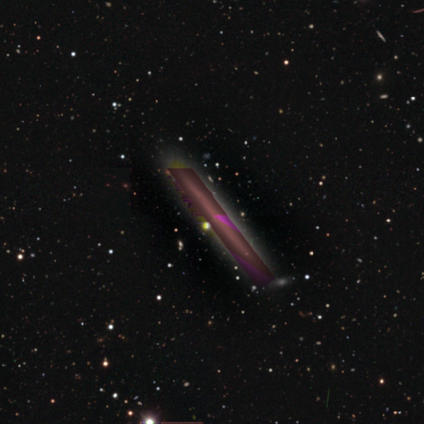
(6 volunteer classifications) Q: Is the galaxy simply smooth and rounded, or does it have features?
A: star or artifact — 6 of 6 (100%).